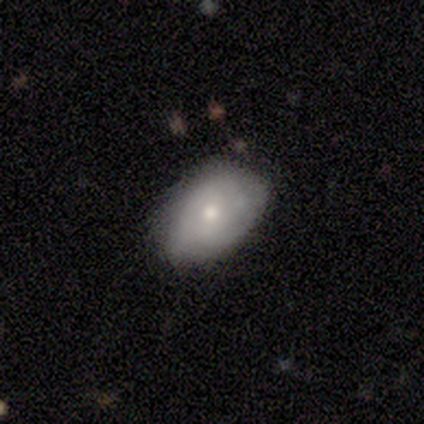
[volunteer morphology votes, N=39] smooth_or_featured: smooth (p=0.64) [alt: featured or disk p=0.28]
how_rounded: in between (p=0.96) [alt: round p=0.04]
merging: none (p=0.64) [alt: minor disturbance p=0.28]